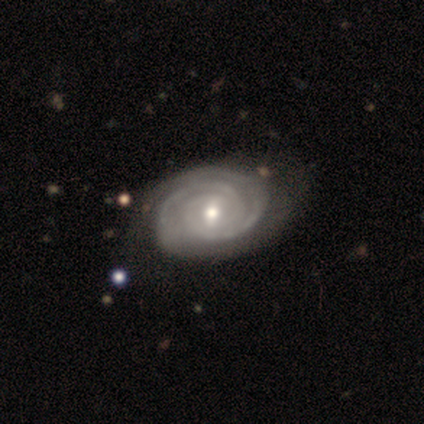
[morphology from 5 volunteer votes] Smooth or featured: featured or disk — 80% (smooth — 20%)
Edge-on disk: no — 100%
Bar: weak — 50% (tied with no — 50%)
Spiral arms: yes — 100%
Spiral winding: tight — 75% (medium — 25%)
Spiral arm count: 2 — 75% (1 — 25%)
Bulge size: small — 75% (moderate — 25%)
Merging: none — 60% (minor disturbance — 40%)